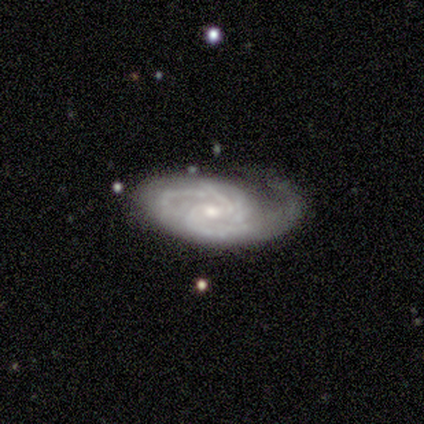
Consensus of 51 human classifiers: featured or disk 92%, star or artifact 8%, smooth 0%. Down the decision tree: edge-on disk — no (98%); bar — no (61%); spiral arms — yes (96%); spiral arm count — 2 (34%); spiral winding — tight (52%); bulge size — small (59%); merging — none (51%).